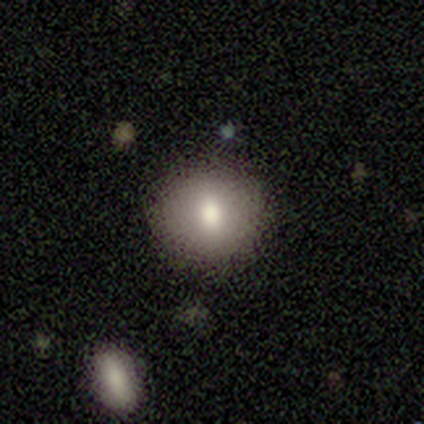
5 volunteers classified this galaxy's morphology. Smooth or featured: smooth — 60% (featured or disk — 40%)
How rounded: round — 67% (in between — 33%)
Merging: none — 80% (minor disturbance — 20%)